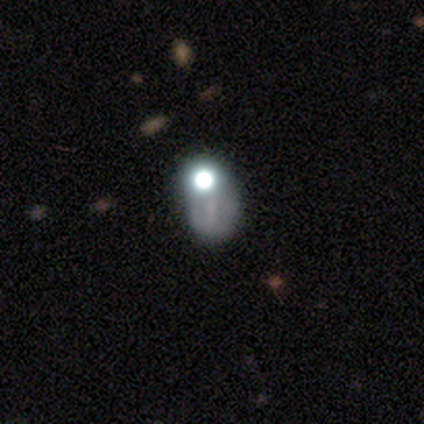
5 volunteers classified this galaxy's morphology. Overall: star or artifact (60%; smooth 40%).